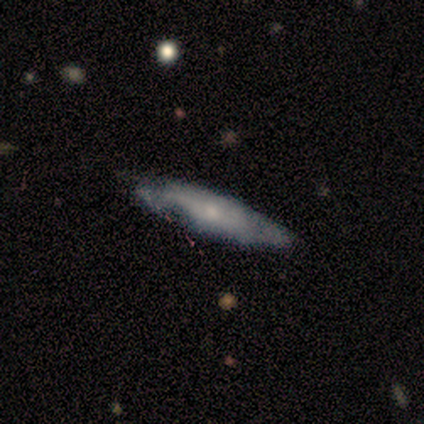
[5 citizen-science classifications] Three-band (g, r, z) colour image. It shows a featured or disk galaxy (80%) with no bar (100%), no spiral arms (67%) and a small central bulge (67%). Merging: minor disturbance (60%).